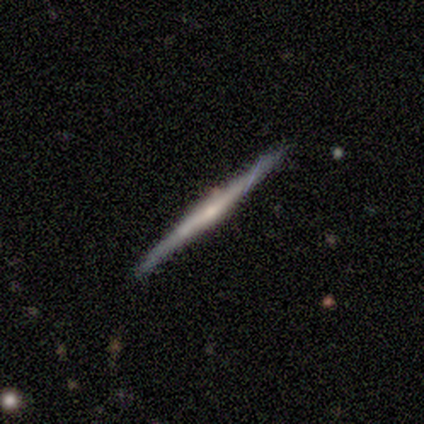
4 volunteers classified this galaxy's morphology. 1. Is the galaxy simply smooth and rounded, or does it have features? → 75% featured or disk, 25% smooth, 0% star or artifact.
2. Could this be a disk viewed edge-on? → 100% yes, 0% no.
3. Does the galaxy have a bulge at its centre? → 33% boxy (tied), 33% none (tied), 33% rounded (tied).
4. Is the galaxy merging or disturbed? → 100% none, 0% minor disturbance, 0% major disturbance, 0% merger.